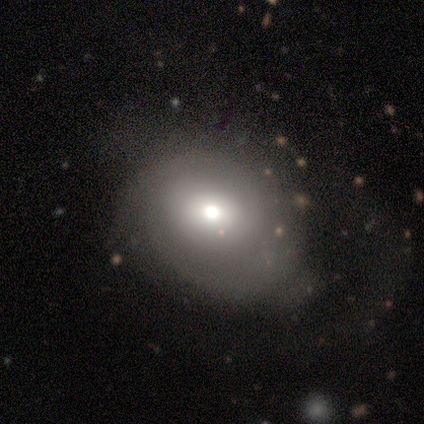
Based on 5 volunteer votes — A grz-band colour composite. It shows a featured or disk galaxy (80%) viewed edge-on (50%, tied with no) with no central bulge (50%, tied with rounded). Merging: none (40%, tied with minor disturbance).